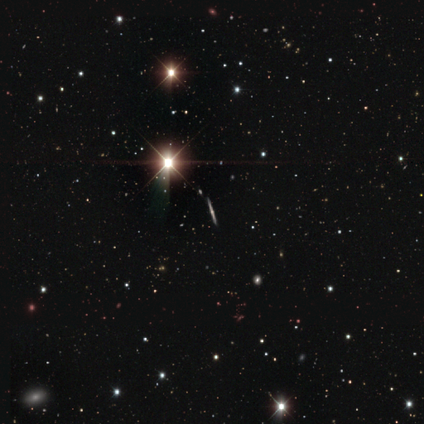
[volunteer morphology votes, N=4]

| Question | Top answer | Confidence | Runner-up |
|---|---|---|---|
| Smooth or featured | featured or disk | 75% | star or artifact (25%) |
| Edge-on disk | yes | 100% | — |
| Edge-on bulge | rounded | 100% | — |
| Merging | none | 100% | — |